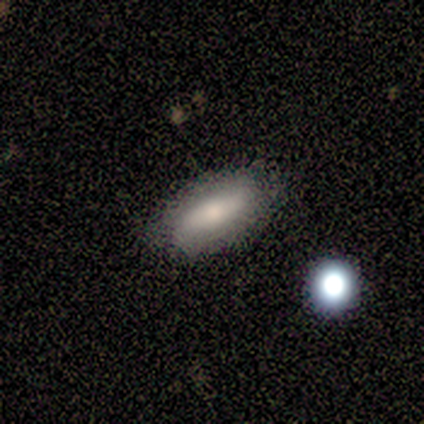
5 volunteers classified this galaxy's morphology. A smooth galaxy with no disk features (60%) that is in between round and cigar-shaped (100%). Merging: none (60%).